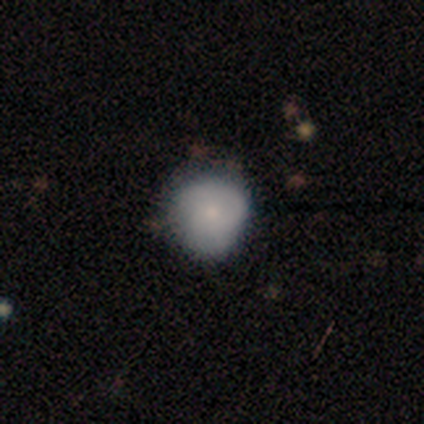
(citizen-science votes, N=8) smooth_or_featured: smooth (p=0.88) [alt: featured or disk p=0.12]
how_rounded: round (p=1.00)
merging: none (p=0.88) [alt: minor disturbance p=0.12]